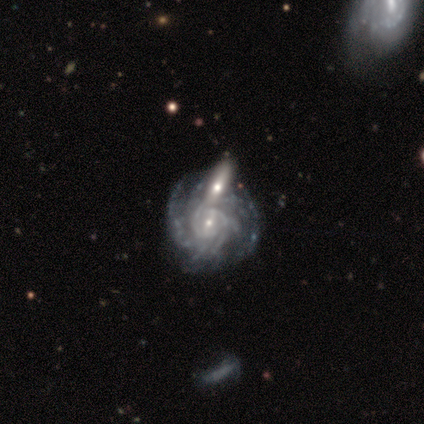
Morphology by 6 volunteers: Smooth or featured?
  - featured or disk: 100% *
  - smooth: 0%
  - star or artifact: 0%
Edge-on disk?
  - no: 100% *
  - yes: 0%
Bar?
  - no: 50% *
  - strong: 33%
  - weak: 17%
Spiral arms?
  - yes: 100% *
  - no: 0%
Spiral winding?
  - tight: 100% *
  - medium: 0%
  - loose: 0%
Spiral arm count?
  - can't tell: 50% *
  - 1: 17%
  - 4: 17%
  - more than 4: 17%
  - 2: 0%
  - 3: 0%
Bulge size?
  - small: 67% *
  - moderate: 33%
  - dominant: 0%
  - large: 0%
  - none: 0%
Merging?
  - none: 33% * (tied)
  - minor disturbance: 33% * (tied)
  - merger: 33% * (tied)
  - major disturbance: 0%